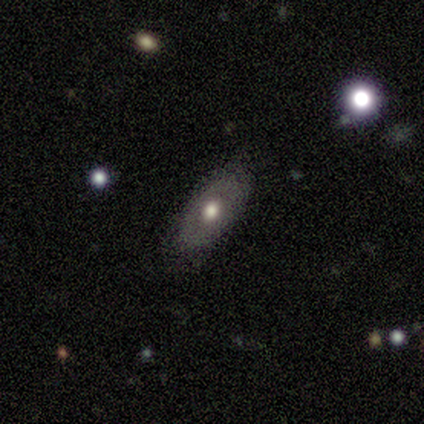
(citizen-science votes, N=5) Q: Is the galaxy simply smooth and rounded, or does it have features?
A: smooth — 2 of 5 (40%, tied with featured or disk).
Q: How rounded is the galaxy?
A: in between — 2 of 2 (100%).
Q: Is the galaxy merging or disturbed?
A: none — 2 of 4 (50%, tied with minor disturbance).